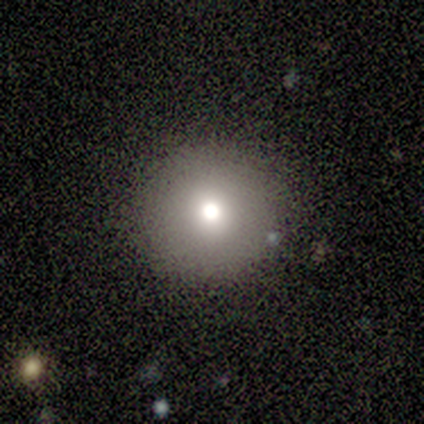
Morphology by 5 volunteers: A smooth galaxy with no disk features (80%) that is round (100%).

Vote fractions:
- Smooth or featured? smooth: 80% / featured or disk: 20% / star or artifact: 0%
- How rounded? round: 100% / in between: 0% / cigar-shaped: 0%
- Merging? none: 80% / merger: 20% / minor disturbance: 0% / major disturbance: 0%